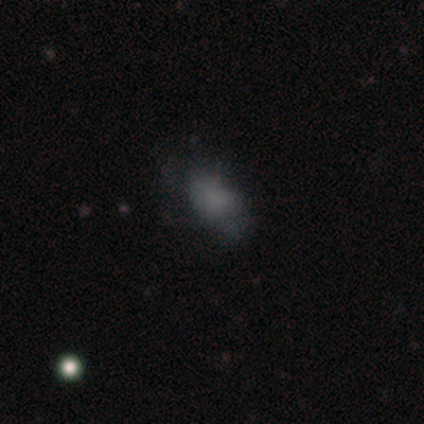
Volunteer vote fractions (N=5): Smooth or featured?
  - smooth: 60% *
  - featured or disk: 40%
  - star or artifact: 0%
How rounded?
  - in between: 100% *
  - round: 0%
  - cigar-shaped: 0%
Merging?
  - major disturbance: 60% *
  - none: 40%
  - minor disturbance: 0%
  - merger: 0%